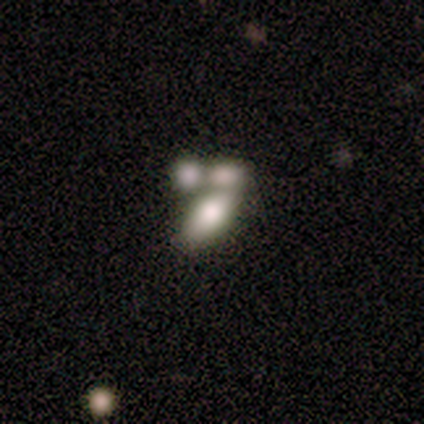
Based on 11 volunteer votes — This appears to be a smooth galaxy with no disk features (64%) that is in between round and cigar-shaped (86%). Merging: merger (67%).